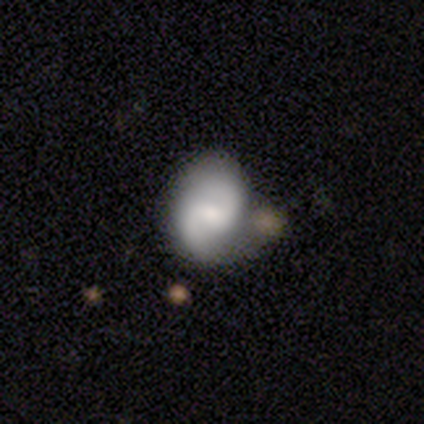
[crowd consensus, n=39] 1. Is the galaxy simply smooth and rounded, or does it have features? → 82% featured or disk, 18% smooth, 0% star or artifact.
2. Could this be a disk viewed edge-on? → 100% no, 0% yes.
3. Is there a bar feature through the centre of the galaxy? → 47% no, 44% weak, 9% strong.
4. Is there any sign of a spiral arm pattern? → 91% yes, 9% no.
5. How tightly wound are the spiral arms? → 66% medium, 24% loose, 10% tight.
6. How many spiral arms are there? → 97% 2, 3% can't tell, 0% 1, 0% 3, 0% 4, 0% more than 4.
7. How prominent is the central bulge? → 53% moderate, 22% none, 19% small, 6% large, 0% dominant.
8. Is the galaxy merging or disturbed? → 33% none, 15% minor disturbance, 10% merger, 8% major disturbance.